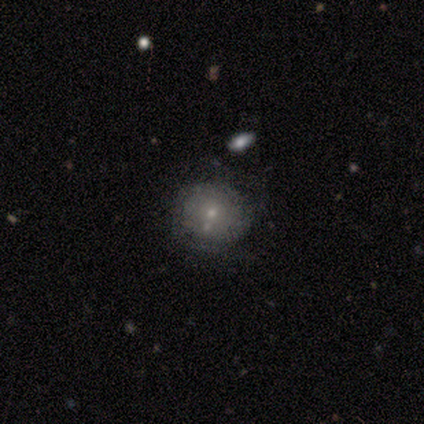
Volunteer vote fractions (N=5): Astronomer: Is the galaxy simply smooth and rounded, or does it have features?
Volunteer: smooth — 60% (runner-up: featured or disk, 40%).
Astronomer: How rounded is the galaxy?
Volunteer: round — 100%.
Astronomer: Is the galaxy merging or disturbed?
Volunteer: none — 80%.